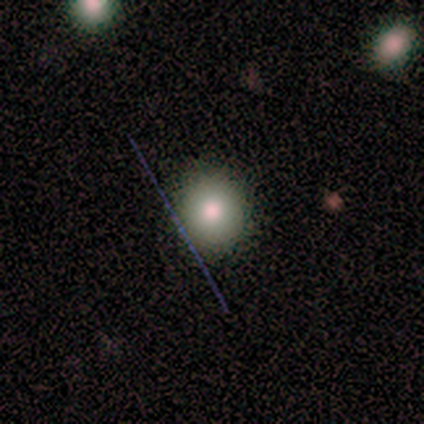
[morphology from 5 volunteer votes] A smooth galaxy with no disk features (80%) that is round (75%). Merging: none (100%).